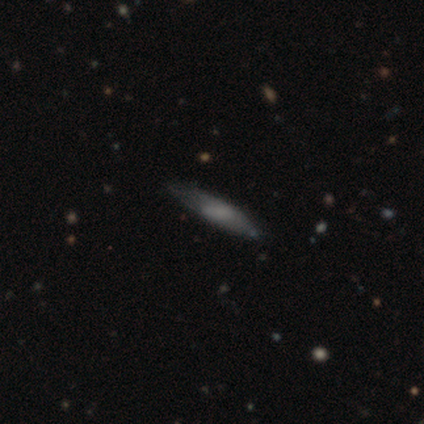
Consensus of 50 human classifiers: A featured or disk galaxy (52%) viewed edge-on (54%) with no central bulge (36%, tied with rounded). Merging: none (67%).